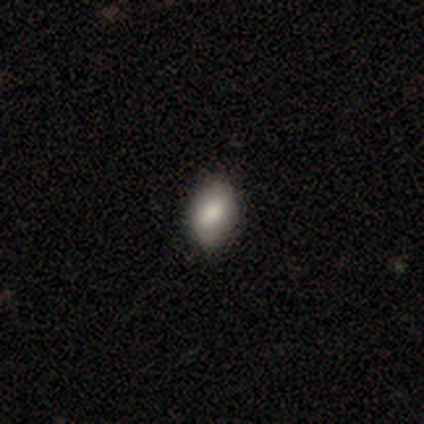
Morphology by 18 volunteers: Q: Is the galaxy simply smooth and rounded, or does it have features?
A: smooth — 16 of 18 (89%).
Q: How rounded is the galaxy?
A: in between — 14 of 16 (88%).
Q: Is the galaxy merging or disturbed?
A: none — 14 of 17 (82%).